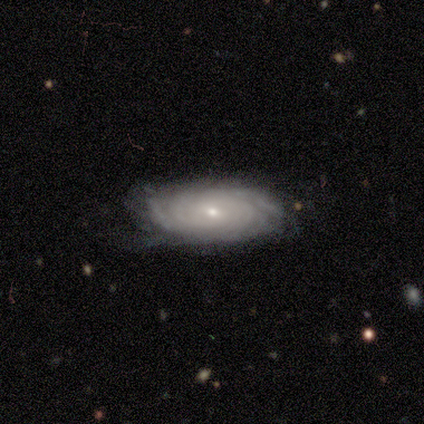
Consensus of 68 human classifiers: Overall: featured or disk (82%). Edge-on disk: no (93%). Bar: no (65%; weak 29%). Spiral arms: yes (92%). Spiral arm count: can't tell (56%; more than 4 19%). Spiral winding: tight (90%). Bulge size: small (83%). Merging: none (66%; minor disturbance 26%).